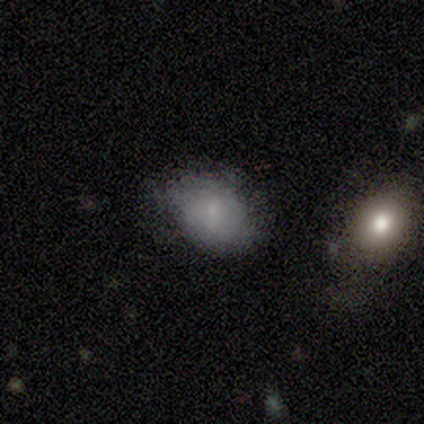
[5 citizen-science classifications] Morphology: type=smooth (60%); roundness=in between (100%); merging=none (25%, tied with minor disturbance, major disturbance and merger).